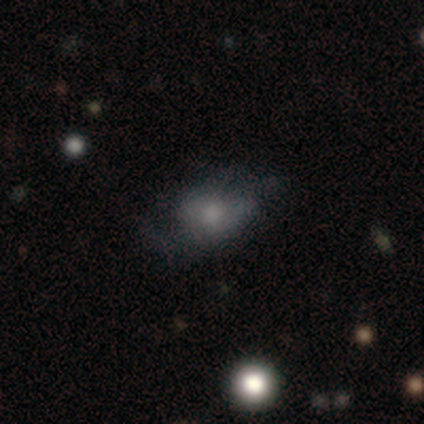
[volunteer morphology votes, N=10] Smooth or featured?
  - featured or disk: 60% *
  - smooth: 40%
  - star or artifact: 0%
Edge-on disk?
  - no: 100% *
  - yes: 0%
Bar?
  - no: 83% *
  - strong: 17%
  - weak: 0%
Spiral arms?
  - no: 67% *
  - yes: 33%
Bulge size?
  - small: 50% *
  - large: 17%
  - moderate: 17%
  - none: 17%
  - dominant: 0%
Merging?
  - none: 50% *
  - minor disturbance: 30%
  - major disturbance: 20%
  - merger: 0%